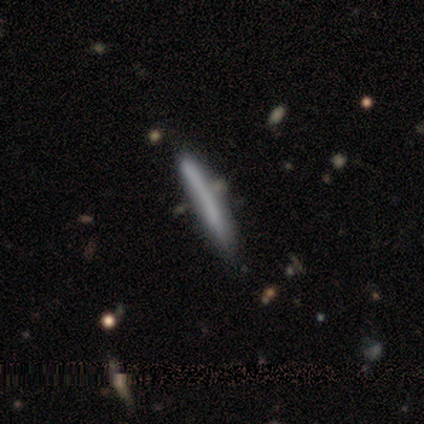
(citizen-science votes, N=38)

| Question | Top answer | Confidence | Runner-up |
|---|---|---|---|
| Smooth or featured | smooth | 71% | featured or disk (29%) |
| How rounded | cigar-shaped | 100% | — |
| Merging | none | 68% | minor disturbance (13%) |